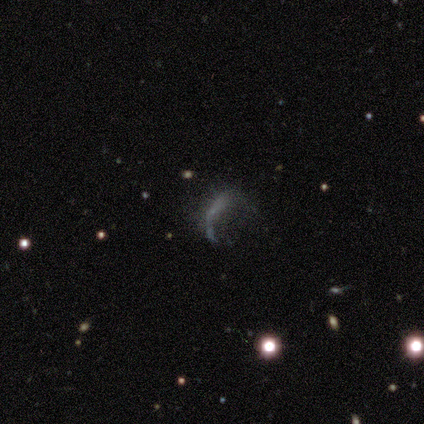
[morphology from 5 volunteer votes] Smooth or featured? 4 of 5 (80%) said star or artifact.